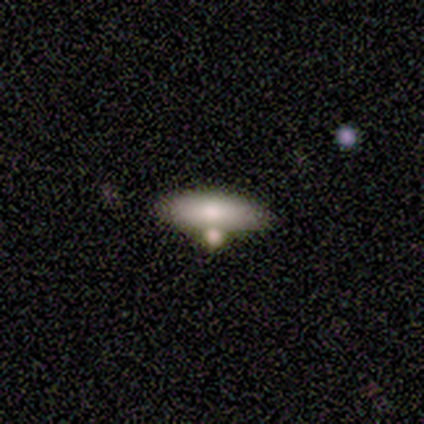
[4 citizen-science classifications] Smooth or featured: smooth — 75% (star or artifact — 25%)
How rounded: in between — 100%
Merging: none — 33% (tied with major disturbance — 33%; merger — 33%)